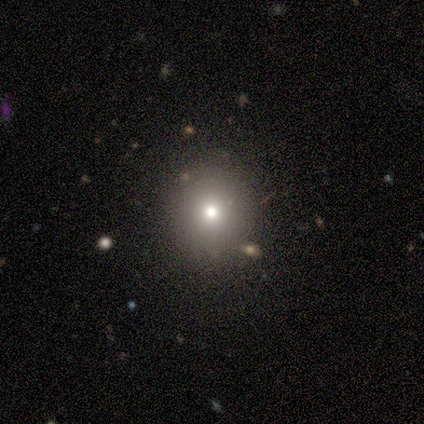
A smooth galaxy with no disk features (40%, tied with featured or disk) that is round (100%).

Vote fractions:
- Smooth or featured? smooth: 40% (tied) / featured or disk: 40% (tied) / star or artifact: 20%
- How rounded? round: 100% / in between: 0% / cigar-shaped: 0%
- Merging? none: 100% / minor disturbance: 0% / major disturbance: 0% / merger: 0%